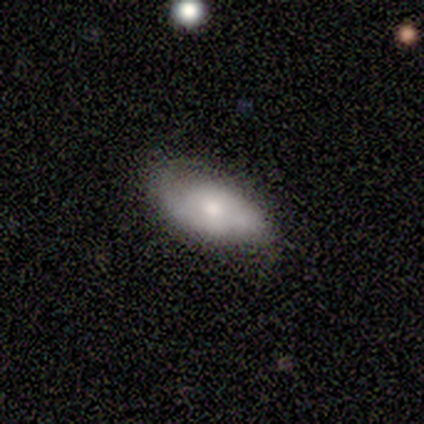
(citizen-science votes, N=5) Smooth or featured? 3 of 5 (60%) said smooth. How rounded? 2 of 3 (67%) said in between. Merging? 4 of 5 (80%) said none.